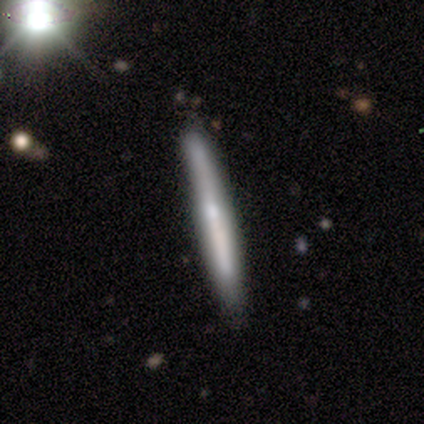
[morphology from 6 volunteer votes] smooth 50% (tied), featured or disk 50% (tied), star or artifact 0%. Down the decision tree: how rounded — cigar-shaped (100%); merging — none (67%).